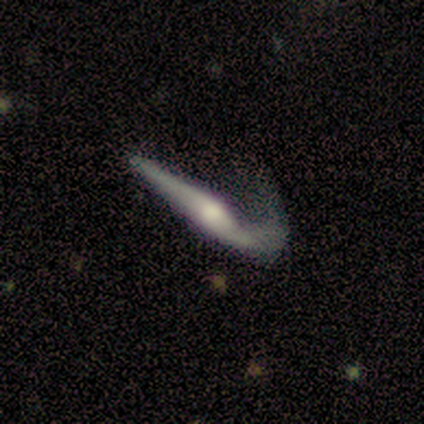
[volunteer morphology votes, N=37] Q: Smooth or featured?
A: featured or disk (70%); runner-up: smooth (30%)
Q: Edge-on disk?
A: yes (85%); runner-up: no (15%)
Q: Edge-on bulge?
A: rounded (100%)
Q: Merging?
A: major disturbance (57%); runner-up: none (30%)